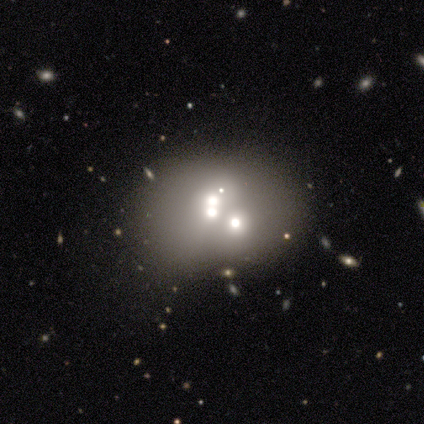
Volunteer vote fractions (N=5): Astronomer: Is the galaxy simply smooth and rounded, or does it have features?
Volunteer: featured or disk — 40%, tied with star or artifact at 40%.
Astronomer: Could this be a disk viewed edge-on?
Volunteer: no — 100%.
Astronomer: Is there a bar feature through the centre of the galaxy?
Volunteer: no — 100%.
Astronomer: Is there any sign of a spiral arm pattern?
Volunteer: no — 100%.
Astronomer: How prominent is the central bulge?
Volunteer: moderate — 100%.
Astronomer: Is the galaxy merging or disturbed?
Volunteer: none — 33%, tied with minor disturbance and merger at 33%.